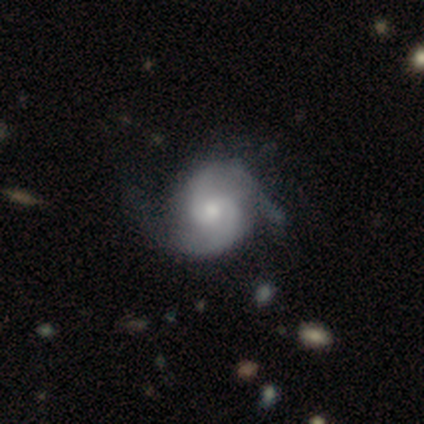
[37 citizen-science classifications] Smooth or featured: featured or disk — 89% (smooth — 8%)
Edge-on disk: no — 97% (yes — 3%)
Bar: no — 56% (weak — 44%)
Spiral arms: yes — 100%
Spiral winding: medium — 69% (tight — 22%)
Spiral arm count: 2 — 97% (can't tell — 3%)
Bulge size: moderate — 53% (small — 38%)
Merging: none — 42% (minor disturbance — 31%)